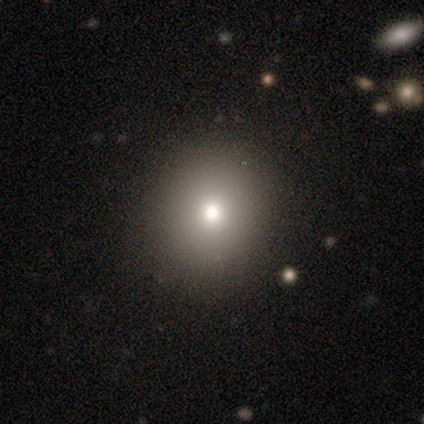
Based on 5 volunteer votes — smooth_or_featured: star or artifact (p=0.80) [alt: smooth p=0.20]